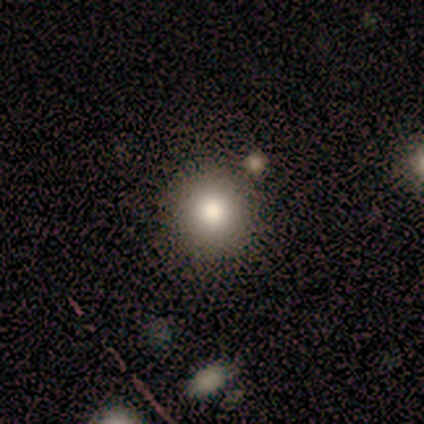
This appears to be a smooth galaxy with no disk features (60%) that is round (100%). Merging: none (75%).